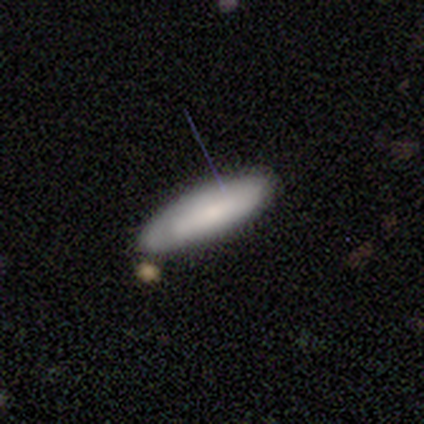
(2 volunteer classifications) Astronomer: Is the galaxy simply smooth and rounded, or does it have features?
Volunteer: smooth — 50%, tied with star or artifact at 50%.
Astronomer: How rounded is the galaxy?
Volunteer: in between — 100%.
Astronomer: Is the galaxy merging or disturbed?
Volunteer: none — 100%.